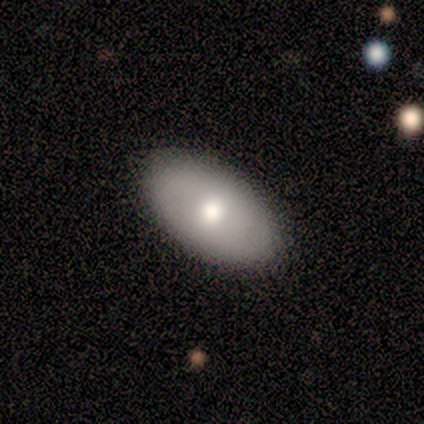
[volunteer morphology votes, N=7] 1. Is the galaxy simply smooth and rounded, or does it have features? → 57% smooth, 43% featured or disk, 0% star or artifact.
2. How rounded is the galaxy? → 100% in between, 0% round, 0% cigar-shaped.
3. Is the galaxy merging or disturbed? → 100% none, 0% minor disturbance, 0% major disturbance, 0% merger.